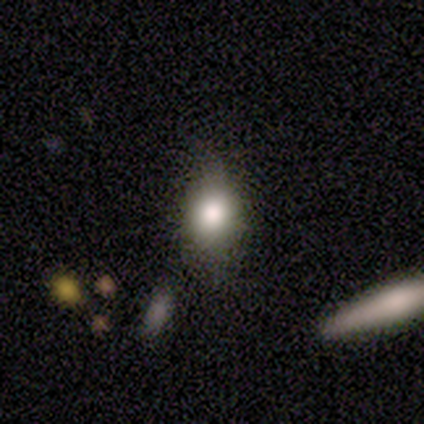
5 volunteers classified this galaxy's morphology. type=featured or disk (60%); edge-on=no (100%); bar=no (67%); spiral arms=no (100%); bulge=large (67%); merging=none (100%).